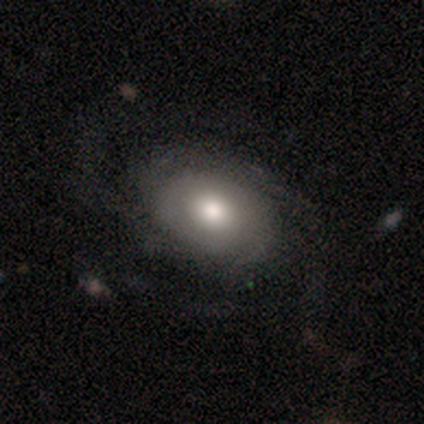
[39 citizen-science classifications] Smooth or featured?
  - featured or disk: 62% *
  - smooth: 36%
  - star or artifact: 3%
Edge-on disk?
  - no: 100% *
  - yes: 0%
Bar?
  - no: 92% *
  - weak: 8%
  - strong: 0%
Spiral arms?
  - yes: 83% *
  - no: 17%
Spiral winding?
  - medium: 40% *
  - tight: 30%
  - loose: 30%
Spiral arm count?
  - can't tell: 40% *
  - 4: 25%
  - 3: 20%
  - 2: 15%
  - 1: 0%
  - more than 4: 0%
Bulge size?
  - large: 54% *
  - moderate: 42%
  - small: 4%
  - dominant: 0%
  - none: 0%
Merging?
  - none: 47% *
  - minor disturbance: 24%
  - major disturbance: 24%
  - merger: 5%